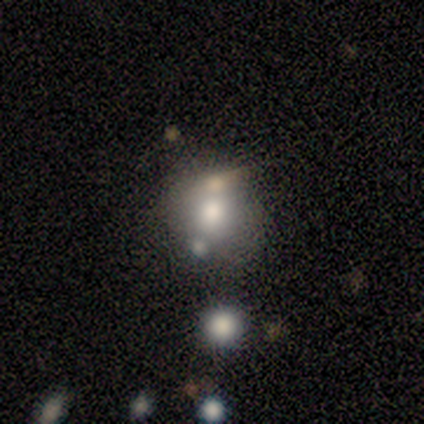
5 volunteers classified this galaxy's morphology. Overall: smooth (60%; featured or disk 40%). How rounded: round (100%). Merging: merger (60%; none 40%).